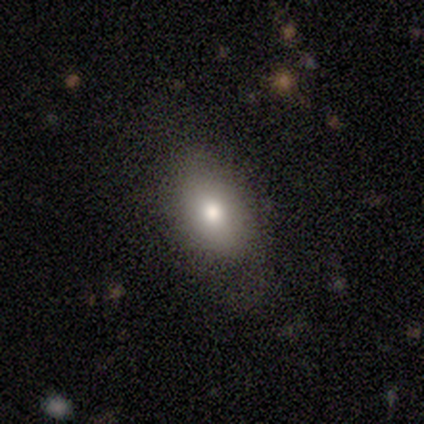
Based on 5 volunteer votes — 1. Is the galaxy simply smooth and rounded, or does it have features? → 100% smooth, 0% featured or disk, 0% star or artifact.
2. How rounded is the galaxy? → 100% in between, 0% round, 0% cigar-shaped.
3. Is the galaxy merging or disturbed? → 80% none, 20% minor disturbance, 0% major disturbance, 0% merger.